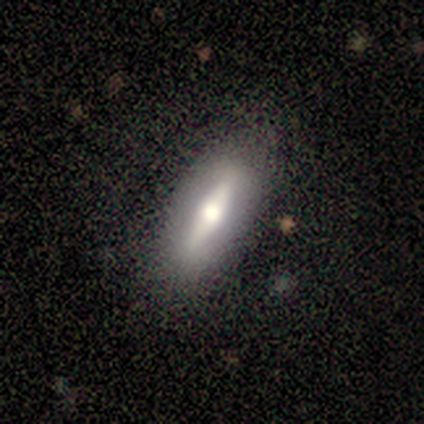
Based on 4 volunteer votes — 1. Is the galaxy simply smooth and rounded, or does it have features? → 50% smooth (tied), 50% featured or disk (tied), 0% star or artifact.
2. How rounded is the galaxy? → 50% in between (tied), 50% cigar-shaped (tied), 0% round.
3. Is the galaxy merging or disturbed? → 100% none, 0% minor disturbance, 0% major disturbance, 0% merger.